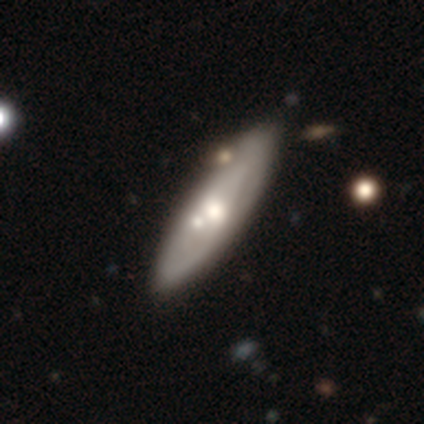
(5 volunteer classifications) Volunteers were most divided on "spiral arms" (2-way tie): yes: 50%, no: 50%; "spiral winding" (2-way tie): tight: 50%, loose: 50%, medium: 0%. More confident: edge-on disk — no (100%); bar — no (100%); spiral arm count — can't tell (100%); bulge size — moderate (100%); smooth or featured — featured or disk (80%); merging — none (80%).